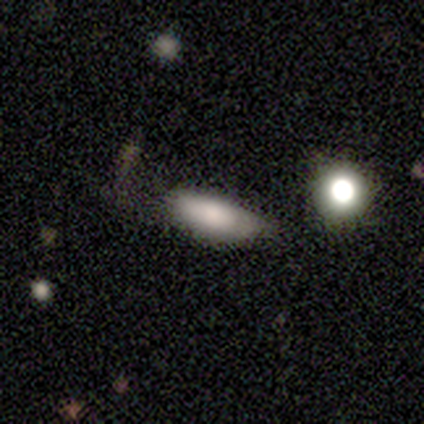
Smooth or featured? smooth (100%)
How rounded? in between (60%)
Merging? minor disturbance (60%)